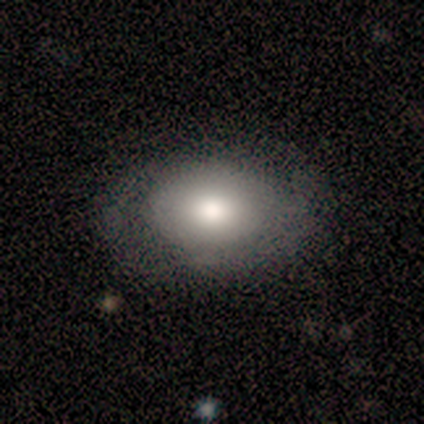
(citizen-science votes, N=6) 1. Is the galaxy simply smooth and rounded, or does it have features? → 83% smooth, 17% featured or disk, 0% star or artifact.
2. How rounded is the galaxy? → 100% in between, 0% round, 0% cigar-shaped.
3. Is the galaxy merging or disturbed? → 100% none, 0% minor disturbance, 0% major disturbance, 0% merger.